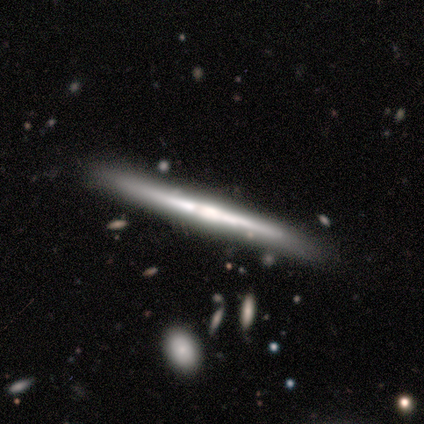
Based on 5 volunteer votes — A featured or disk galaxy (80%) viewed edge-on (100%) with no central bulge (50%). Merging: none (100%).